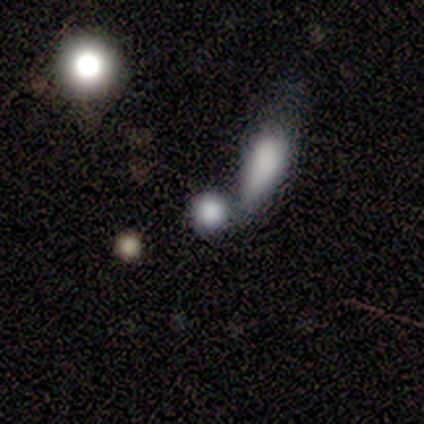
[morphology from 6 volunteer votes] Q: Smooth or featured?
A: smooth (83%); runner-up: star or artifact (17%)
Q: How rounded?
A: round (80%); runner-up: in between (20%)
Q: Merging?
A: none (60%); runner-up: merger (40%)